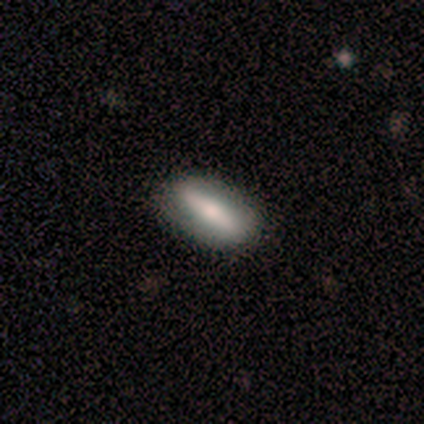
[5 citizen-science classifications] smooth-or-featured: smooth: 100% | featured or disk: 0% | star or artifact: 0%
  how-rounded: in between: 60% | cigar-shaped: 40% | round: 0%
  merging: none: 80% | minor disturbance: 20% | major disturbance: 0% | merger: 0%